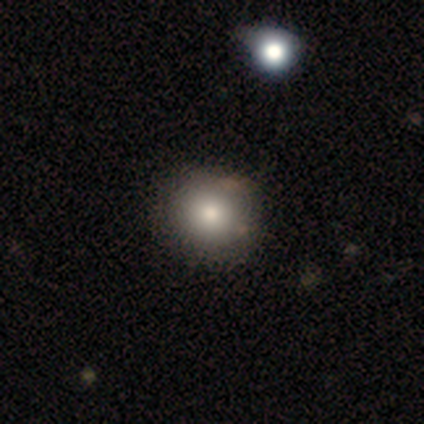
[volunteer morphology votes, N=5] Q: Smooth or featured?
A: smooth (60%); runner-up: featured or disk (40%)
Q: How rounded?
A: round (100%)
Q: Merging?
A: none (60%); runner-up: minor disturbance (20%)